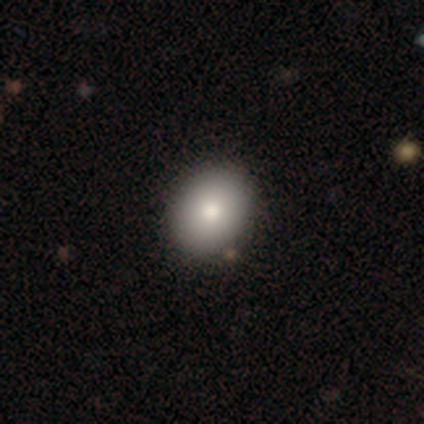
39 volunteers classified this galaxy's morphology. A smooth galaxy with no disk features (79%) that is round (58%).

Vote fractions:
- Smooth or featured? smooth: 79% / featured or disk: 10% / star or artifact: 10%
- How rounded? round: 58% / in between: 42% / cigar-shaped: 0%
- Merging? none: 54% / minor disturbance: 3% / major disturbance: 0% / merger: 0%